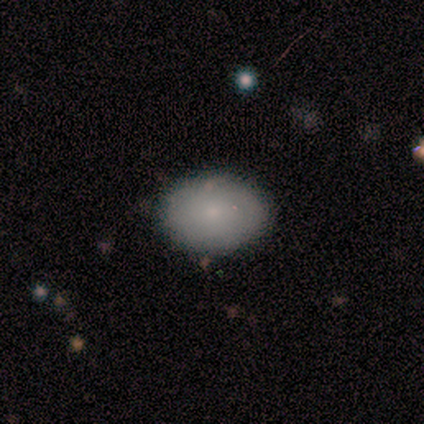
Smooth or featured? 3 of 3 (100%) said smooth. How rounded? 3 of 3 (100%) said in between. Merging? 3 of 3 (100%) said none.